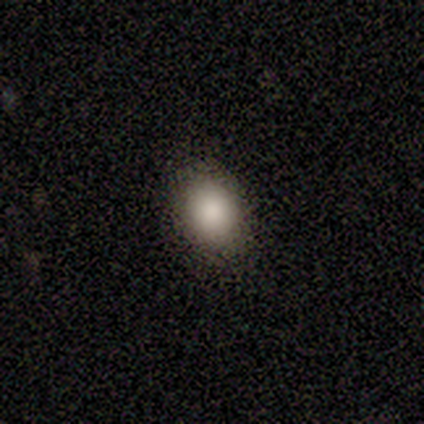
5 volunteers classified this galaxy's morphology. Volunteers were most divided on "merging": none: 50%, minor disturbance: 25%, major disturbance: 25%, merger: 0%. More confident: smooth or featured — smooth (80%); how rounded — in between (75%).